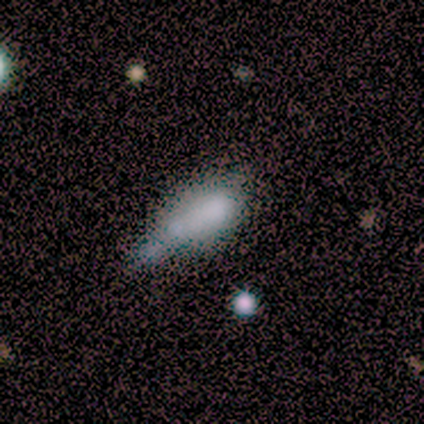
Smooth or featured? smooth (50%, tied with star or artifact)
How rounded? in between (67%)
Merging? minor disturbance (33%, tied with major disturbance and merger)